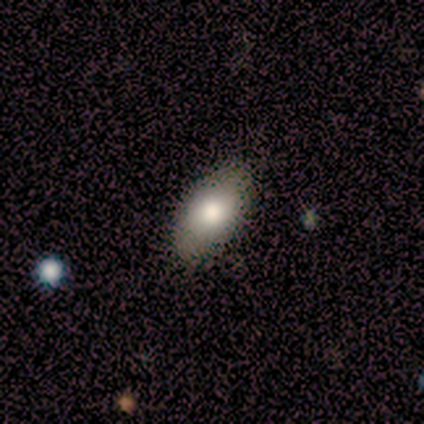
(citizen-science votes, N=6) Smooth or featured? smooth (67%)
How rounded? in between (100%)
Merging? none (83%)